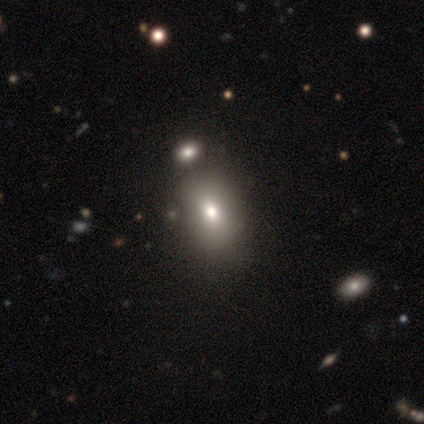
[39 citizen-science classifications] A smooth galaxy with no disk features (67%) that is in between round and cigar-shaped (81%). Merging: none (67%).